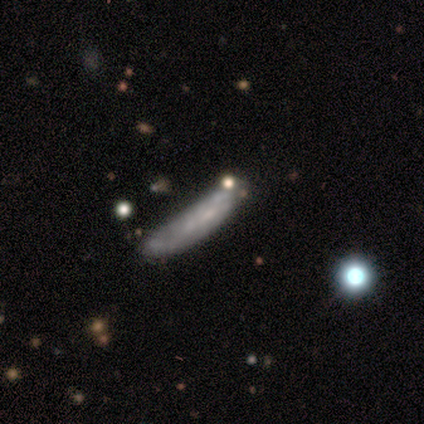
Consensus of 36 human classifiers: This is possibly a featured or disk galaxy (53%). It is possibly not viewed edge-on (58%). Bar: likely no (73%). Spiral arm pattern: clearly no (82%). Central bulge: likely none (64%). Merging: likely none (60%).